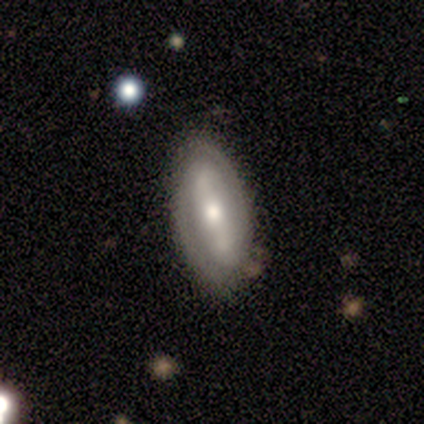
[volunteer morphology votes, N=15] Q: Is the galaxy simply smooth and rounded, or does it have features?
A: featured or disk — 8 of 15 (53%).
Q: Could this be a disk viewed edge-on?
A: no — 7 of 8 (88%).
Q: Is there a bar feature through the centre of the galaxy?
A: strong — 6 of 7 (86%).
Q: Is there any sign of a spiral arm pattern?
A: yes — 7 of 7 (100%).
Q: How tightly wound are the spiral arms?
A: tight — 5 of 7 (71%).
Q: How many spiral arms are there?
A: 2 — 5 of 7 (71%).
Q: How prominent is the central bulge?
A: moderate — 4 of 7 (57%).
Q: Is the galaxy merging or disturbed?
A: none — 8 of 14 (57%).